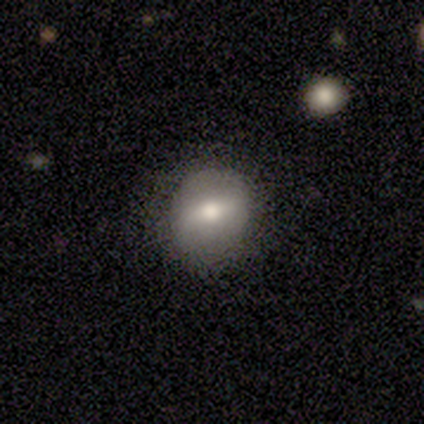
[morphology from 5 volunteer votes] Smooth or featured?
  - smooth: 60% *
  - featured or disk: 40%
  - star or artifact: 0%
How rounded?
  - round: 67% *
  - in between: 33%
  - cigar-shaped: 0%
Merging?
  - none: 100% *
  - minor disturbance: 0%
  - major disturbance: 0%
  - merger: 0%